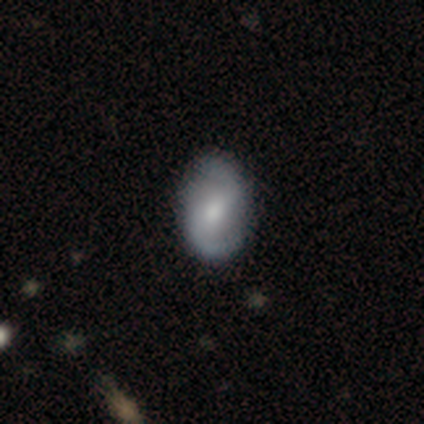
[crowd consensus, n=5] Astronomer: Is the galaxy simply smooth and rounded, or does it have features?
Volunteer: featured or disk — 80%.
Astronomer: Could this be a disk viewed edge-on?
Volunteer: no — 100%.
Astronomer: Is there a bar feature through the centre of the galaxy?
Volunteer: weak — 75%.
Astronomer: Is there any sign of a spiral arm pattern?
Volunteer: yes — 100%.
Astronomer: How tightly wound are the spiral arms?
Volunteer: medium — 50%.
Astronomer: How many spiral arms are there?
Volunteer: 2 — 100%.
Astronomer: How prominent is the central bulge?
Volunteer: small — 75%.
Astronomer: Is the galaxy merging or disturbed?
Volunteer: none — 80%.